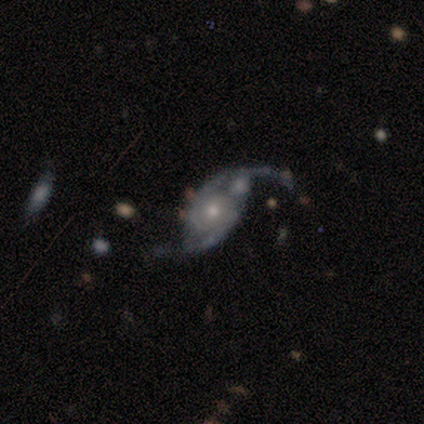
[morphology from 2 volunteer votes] Smooth or featured: featured or disk — 100%
Edge-on disk: no — 100%
Bar: no — 100%
Spiral arms: yes — 100%
Spiral winding: tight — 50% (tied with loose — 50%)
Spiral arm count: 2 — 100%
Bulge size: small — 100%
Merging: none — 50% (tied with minor disturbance — 50%)